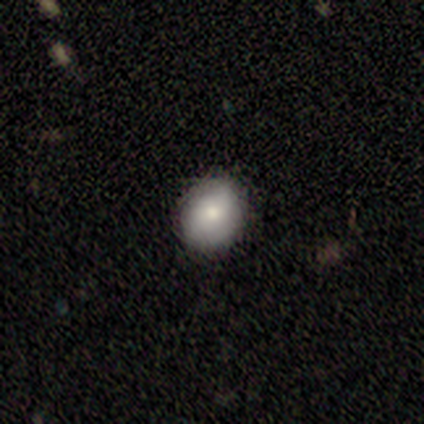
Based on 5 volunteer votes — Overall: smooth (80%). How rounded: round (100%). Merging: none (80%).